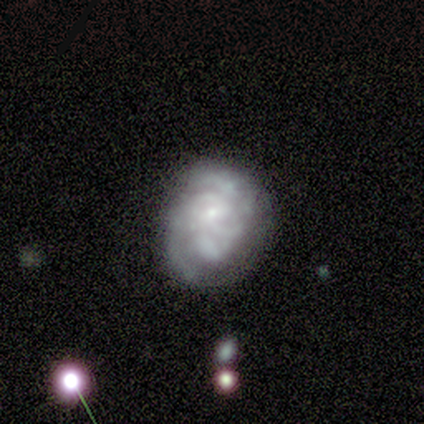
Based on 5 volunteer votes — Volunteers were most divided on "merging": none: 60%, minor disturbance: 20%, major disturbance: 20%, merger: 0%. More confident: edge-on disk — no (100%); bar — no (100%); smooth or featured — featured or disk (80%); spiral arms — no (75%); bulge size — none (75%).